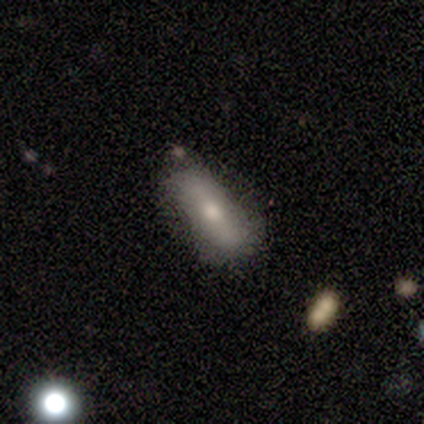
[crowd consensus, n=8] Smooth or featured: smooth — 75% (featured or disk — 12%)
How rounded: in between — 83% (cigar-shaped — 17%)
Merging: none — 57% (minor disturbance — 43%)